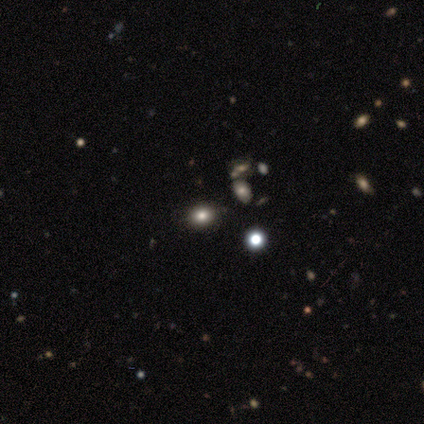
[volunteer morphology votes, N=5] smooth 60%, star or artifact 40%, featured or disk 0%. Down the decision tree: how rounded — round (67%); merging — none (100%).